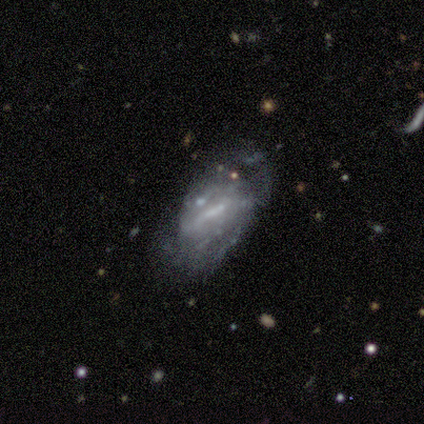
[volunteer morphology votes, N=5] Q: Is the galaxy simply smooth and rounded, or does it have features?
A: featured or disk — 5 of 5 (100%).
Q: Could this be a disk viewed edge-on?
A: no — 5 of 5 (100%).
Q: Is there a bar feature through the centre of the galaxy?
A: weak — 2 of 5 (40%, tied with no).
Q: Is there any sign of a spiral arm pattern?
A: yes — 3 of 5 (60%).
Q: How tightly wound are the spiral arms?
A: tight — 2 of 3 (67%).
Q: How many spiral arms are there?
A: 2 — 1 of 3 (33%, tied with 4 and can't tell).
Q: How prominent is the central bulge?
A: none — 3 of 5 (60%).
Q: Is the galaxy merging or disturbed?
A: minor disturbance — 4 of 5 (80%).